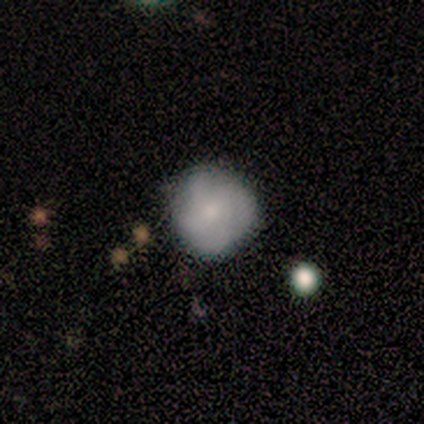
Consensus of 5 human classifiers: Q: Smooth or featured?
A: smooth (80%); runner-up: featured or disk (20%)
Q: How rounded?
A: round (100%)
Q: Merging?
A: none (60%); runner-up: major disturbance (40%)